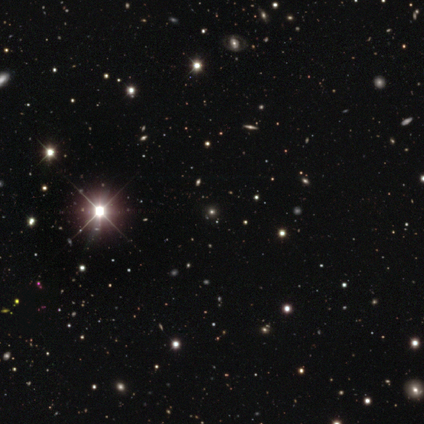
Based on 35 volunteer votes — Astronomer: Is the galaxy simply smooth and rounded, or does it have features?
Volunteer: star or artifact — 86%.